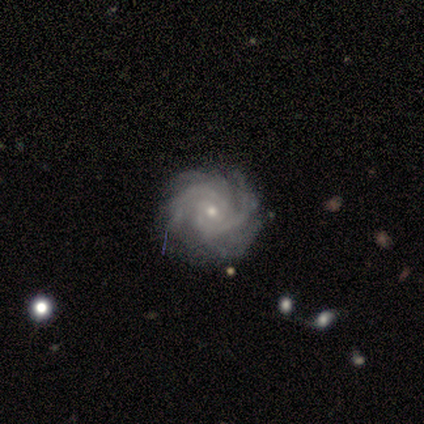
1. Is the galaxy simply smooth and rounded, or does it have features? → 100% featured or disk, 0% smooth, 0% star or artifact.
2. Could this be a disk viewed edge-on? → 100% no, 0% yes.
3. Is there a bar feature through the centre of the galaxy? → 100% no, 0% strong, 0% weak.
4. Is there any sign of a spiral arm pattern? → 100% yes, 0% no.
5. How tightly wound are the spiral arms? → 100% tight, 0% medium, 0% loose.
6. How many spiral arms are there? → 60% 2, 20% 4, 20% can't tell, 0% 1, 0% 3, 0% more than 4.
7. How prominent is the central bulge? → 100% small, 0% dominant, 0% large, 0% moderate, 0% none.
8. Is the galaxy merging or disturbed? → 80% none, 20% minor disturbance, 0% major disturbance, 0% merger.